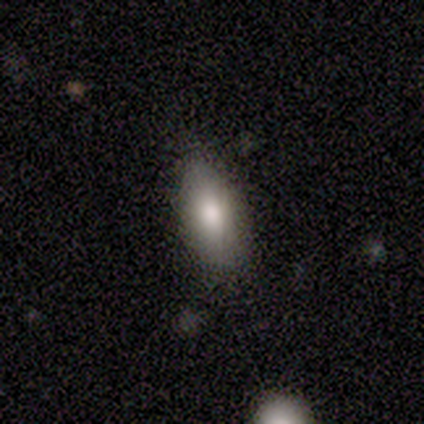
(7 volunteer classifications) Overall: smooth (86%). How rounded: in between (83%). Merging: none (83%).